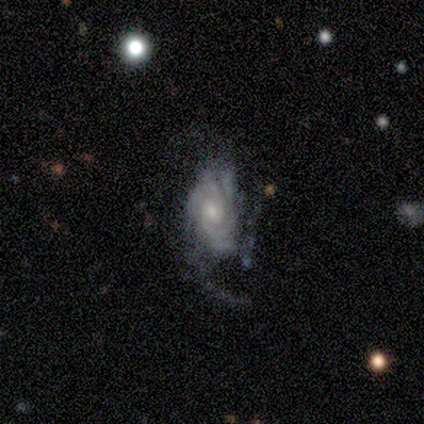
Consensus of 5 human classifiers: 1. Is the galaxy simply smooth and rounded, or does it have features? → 80% featured or disk, 20% smooth, 0% star or artifact.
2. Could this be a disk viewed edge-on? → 100% no, 0% yes.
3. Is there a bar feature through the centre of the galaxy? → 75% no, 25% weak, 0% strong.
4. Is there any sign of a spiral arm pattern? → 100% yes, 0% no.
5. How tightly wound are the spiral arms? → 75% tight, 25% loose, 0% medium.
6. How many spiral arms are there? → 50% 3, 25% 2, 25% 4, 0% 1, 0% more than 4, 0% can't tell.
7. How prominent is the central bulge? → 50% moderate (tied), 50% small (tied), 0% dominant, 0% large, 0% none.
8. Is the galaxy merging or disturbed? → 60% none, 20% minor disturbance, 20% major disturbance, 0% merger.